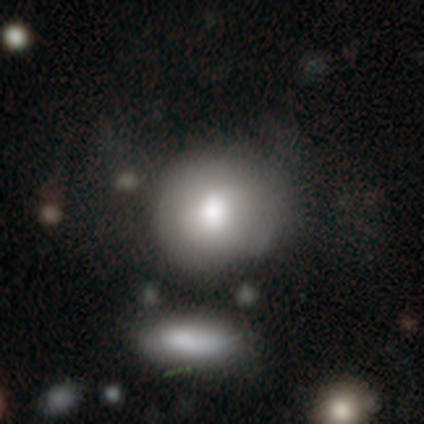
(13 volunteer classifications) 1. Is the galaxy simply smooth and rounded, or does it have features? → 46% featured or disk, 38% smooth, 15% star or artifact.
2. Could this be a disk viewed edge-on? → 100% no, 0% yes.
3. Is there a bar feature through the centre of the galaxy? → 50% weak (tied), 50% no (tied), 0% strong.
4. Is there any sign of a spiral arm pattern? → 100% no, 0% yes.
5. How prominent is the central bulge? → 50% moderate, 33% dominant, 17% large, 0% small, 0% none.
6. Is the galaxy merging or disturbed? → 45% none, 27% minor disturbance, 18% major disturbance, 9% merger.